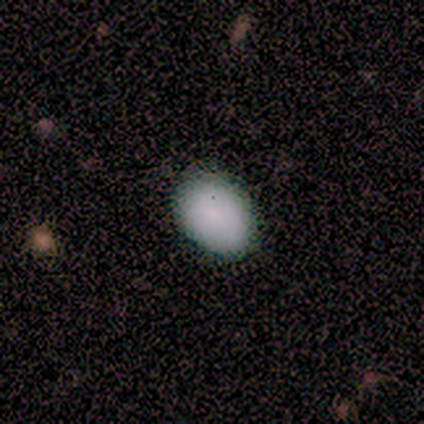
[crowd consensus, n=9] Volunteers were most divided on "how rounded": in between: 78%, round: 22%, cigar-shaped: 0%. More confident: smooth or featured — smooth (100%); merging — none (100%).